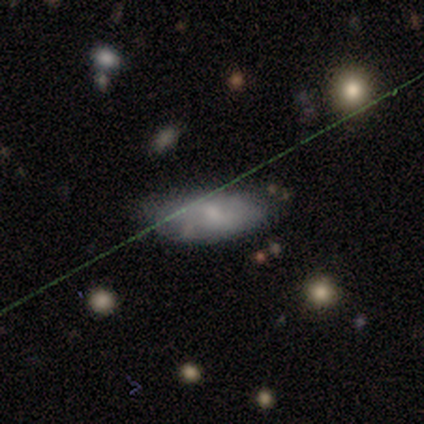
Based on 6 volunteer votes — smooth_or_featured: smooth (p=0.67) [alt: featured or disk p=0.17]
how_rounded: in between (p=1.00)
merging: none (p=0.80) [alt: minor disturbance p=0.20]